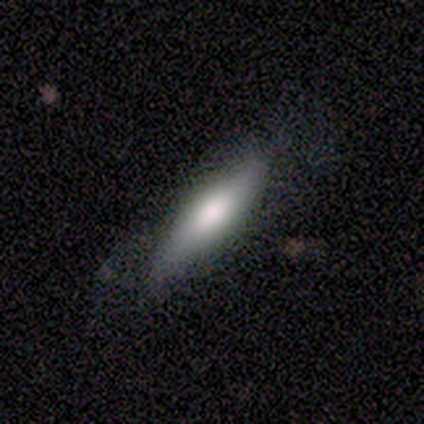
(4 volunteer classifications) Q: Smooth or featured?
A: smooth (75%); runner-up: featured or disk (25%)
Q: How rounded?
A: cigar-shaped (67%); runner-up: round (33%)
Q: Merging?
A: none (50%); tied with: minor disturbance (50%)